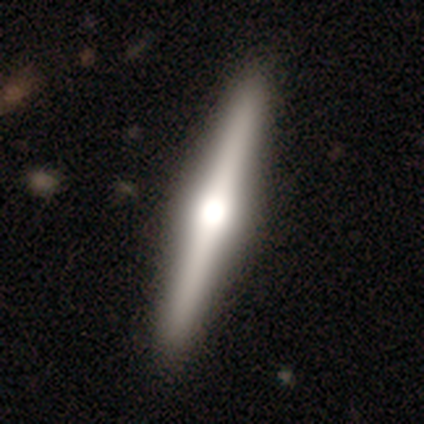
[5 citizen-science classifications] Smooth or featured? 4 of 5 (80%) said featured or disk. Edge-on disk? 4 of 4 (100%) said yes. Edge-on bulge? 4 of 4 (100%) said rounded. Merging? 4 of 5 (80%) said none.